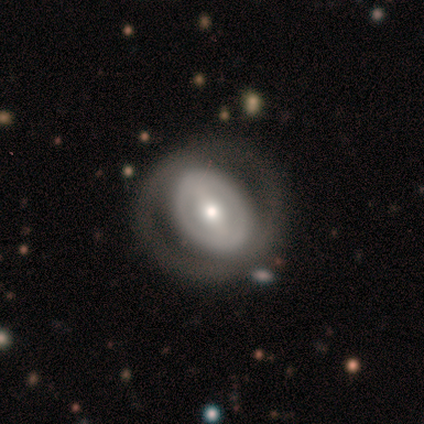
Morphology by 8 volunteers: type=featured or disk (62%); edge-on=no (60%); bar=strong (33%, tied with weak and no); spiral arms=yes (67%); winding=tight (50%, tied with medium); arm count=2 (50%, tied with can't tell); bulge=small (67%); merging=none (88%).